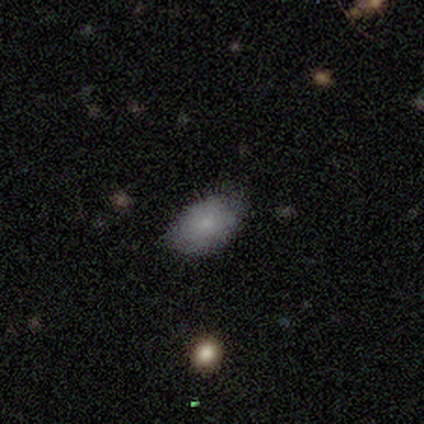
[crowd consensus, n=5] smooth_or_featured: smooth (p=1.00)
how_rounded: in between (p=1.00)
merging: none (p=0.80) [alt: minor disturbance p=0.20]